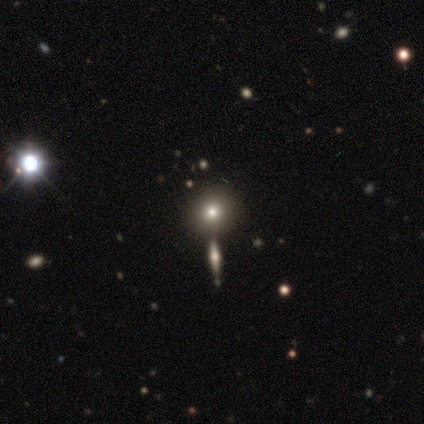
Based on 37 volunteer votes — Overall: smooth (49%; star or artifact 41%). How rounded: round (100%). Merging: none (64%; merger 32%).